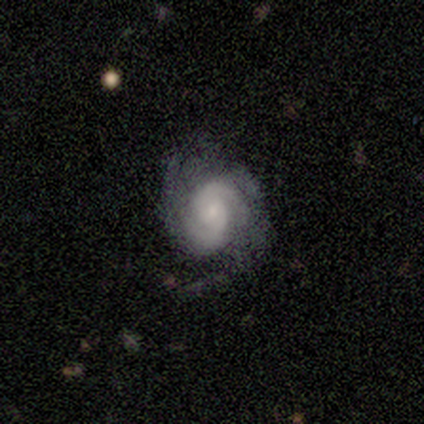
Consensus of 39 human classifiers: A featured or disk galaxy (79%) with no bar (74%), 2 (69%) tight (66%) spiral arms (94%) and a small central bulge (61%).

Vote fractions:
- Smooth or featured? featured or disk: 79% / smooth: 10% / star or artifact: 10%
- Edge-on disk? no: 100% / yes: 0%
- Bar? no: 74% / weak: 19% / strong: 6%
- Spiral arms? yes: 94% / no: 6%
- Spiral winding? tight: 66% / medium: 31% / loose: 3%
- Spiral arm count? 2: 69% / can't tell: 14% / 3: 10% / 1: 3% / more than 4: 3% / 4: 0%
- Bulge size? small: 61% / moderate: 23% / large: 10% / none: 6% / dominant: 0%
- Merging? none: 66% / major disturbance: 17% / minor disturbance: 14% / merger: 3%